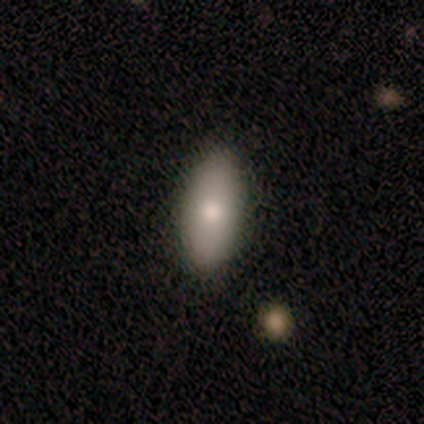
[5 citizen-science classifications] smooth_or_featured: smooth (p=0.80) [alt: featured or disk p=0.20]
how_rounded: in between (p=0.75) [alt: cigar-shaped p=0.25]
merging: none (p=0.80) [alt: minor disturbance p=0.20]